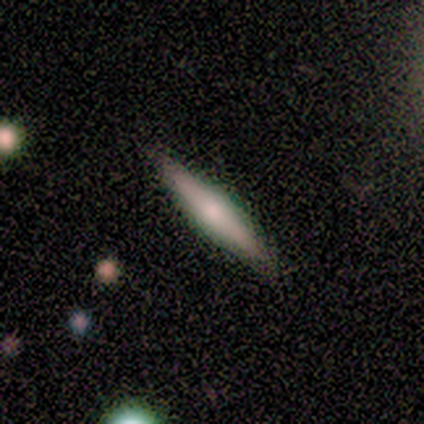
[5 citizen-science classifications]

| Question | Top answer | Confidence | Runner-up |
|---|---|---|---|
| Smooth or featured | featured or disk | 60% | smooth (40%) |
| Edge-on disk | yes | 67% | no (33%) |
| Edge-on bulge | boxy | 50% | tied: rounded (50%) |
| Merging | none | 100% | — |